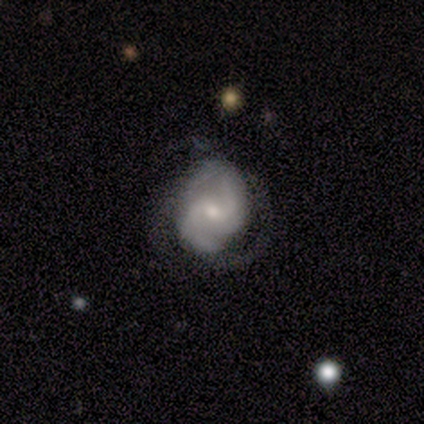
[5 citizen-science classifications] A featured or disk galaxy (80%) with a weak bar (50%), 2 (75%) medium (75%) spiral arms (100%) and a small central bulge (75%).

Vote fractions:
- Smooth or featured? featured or disk: 80% / star or artifact: 20% / smooth: 0%
- Edge-on disk? no: 100% / yes: 0%
- Bar? weak: 50% / strong: 25% / no: 25%
- Spiral arms? yes: 100% / no: 0%
- Spiral winding? medium: 75% / tight: 25% / loose: 0%
- Spiral arm count? 2: 75% / 3: 25% / 1: 0% / 4: 0% / more than 4: 0% / can't tell: 0%
- Bulge size? small: 75% / moderate: 25% / dominant: 0% / large: 0% / none: 0%
- Merging? none: 75% / major disturbance: 25% / minor disturbance: 0% / merger: 0%